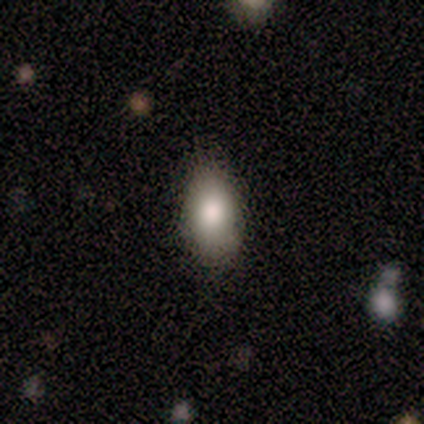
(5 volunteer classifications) Volunteers were most divided on "merging": none: 75%, minor disturbance: 25%, major disturbance: 0%, merger: 0%. More confident: how rounded — in between (100%); smooth or featured — smooth (80%).